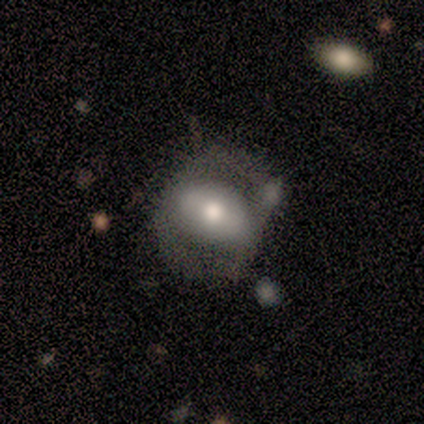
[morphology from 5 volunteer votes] type=featured or disk (80%); edge-on=no (100%); bar=strong (50%, tied with no); spiral arms=no (100%); bulge=moderate (100%); merging=major disturbance (60%).